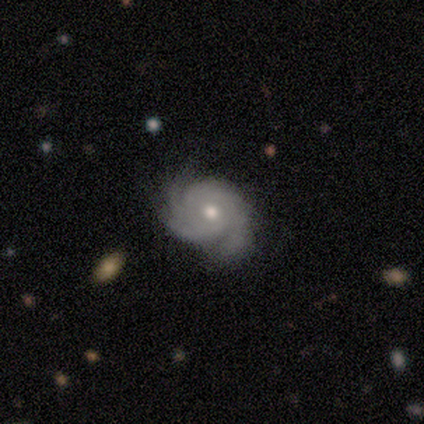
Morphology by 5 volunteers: A featured or disk galaxy (100%) with no bar (60%), tight (60%) spiral arms (100%) and a moderate central bulge (100%). Merging: none (80%).